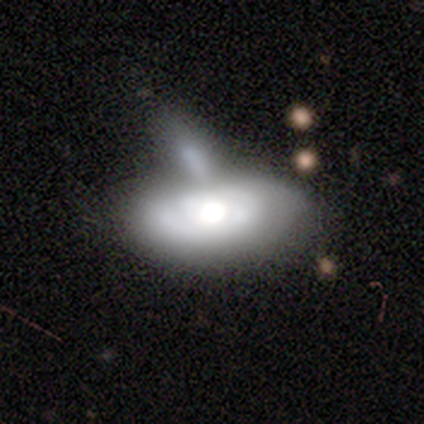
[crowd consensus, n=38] A smooth galaxy with no disk features (50%) that is in between round and cigar-shaped (89%). Merging: merger (46%).